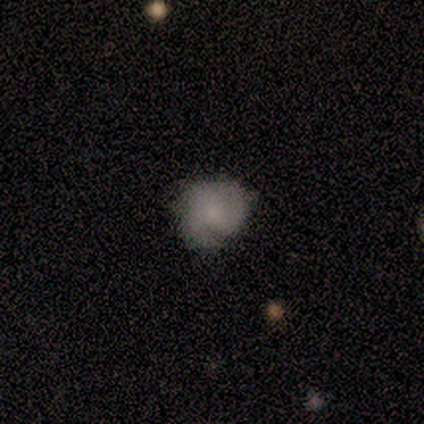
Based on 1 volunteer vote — Smooth or featured? 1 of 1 (100%) said featured or disk. Edge-on disk? 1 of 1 (100%) said no. Bar? 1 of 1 (100%) said no. Spiral arms? 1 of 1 (100%) said yes. Spiral winding? 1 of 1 (100%) said medium. Spiral arm count? 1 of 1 (100%) said 2. Bulge size? 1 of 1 (100%) said moderate. Merging? 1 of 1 (100%) said minor disturbance.